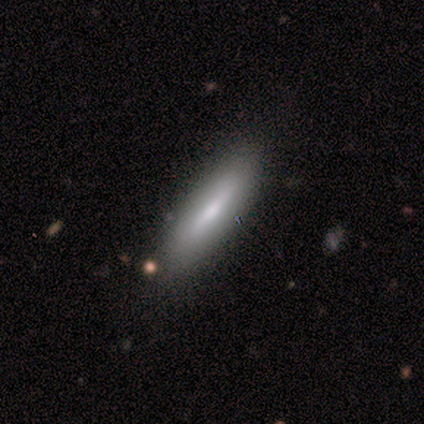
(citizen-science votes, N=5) A smooth galaxy with no disk features (80%) that is in between round and cigar-shaped (50%, tied with cigar-shaped).

Vote fractions:
- Smooth or featured? smooth: 80% / featured or disk: 20% / star or artifact: 0%
- How rounded? in between: 50% (tied) / cigar-shaped: 50% (tied) / round: 0%
- Merging? none: 80% / minor disturbance: 20% / major disturbance: 0% / merger: 0%